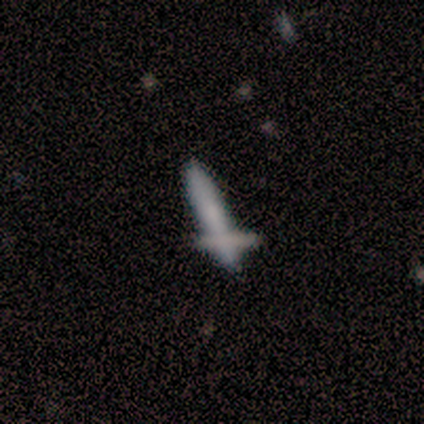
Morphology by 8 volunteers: type=smooth (50%); roundness=cigar-shaped (100%); merging=none (57%).